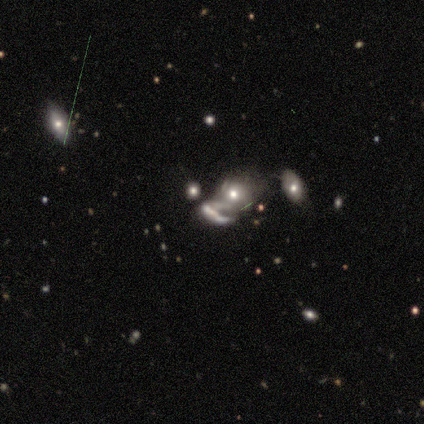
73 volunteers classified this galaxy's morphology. featured or disk 62%, smooth 22%, star or artifact 16%. Down the decision tree: edge-on disk — no (96%); bar — no (84%); spiral arms — no (63%); bulge size — moderate (47%); merging — merger (72%).